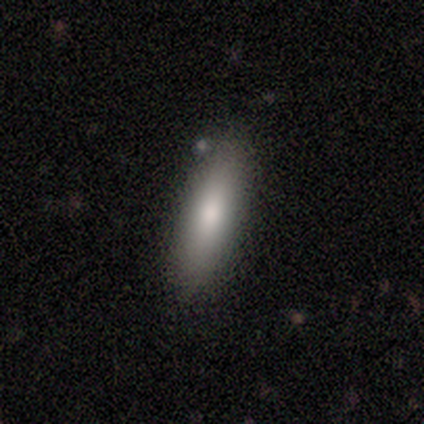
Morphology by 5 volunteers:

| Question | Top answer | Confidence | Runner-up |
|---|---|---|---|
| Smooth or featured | smooth | 100% | — |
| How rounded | cigar-shaped | 80% | in between (20%) |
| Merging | none | 80% | minor disturbance (20%) |